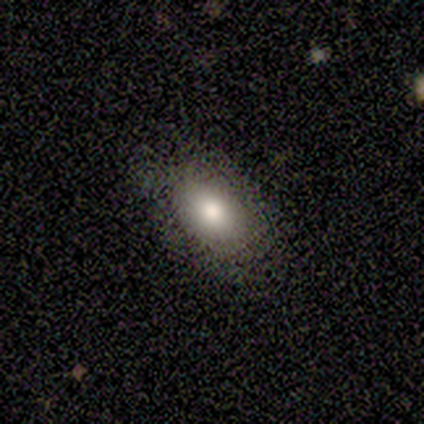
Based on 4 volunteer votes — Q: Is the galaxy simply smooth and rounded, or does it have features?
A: smooth — 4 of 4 (100%).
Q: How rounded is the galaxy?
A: in between — 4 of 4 (100%).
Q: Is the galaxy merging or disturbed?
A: none — 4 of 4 (100%).